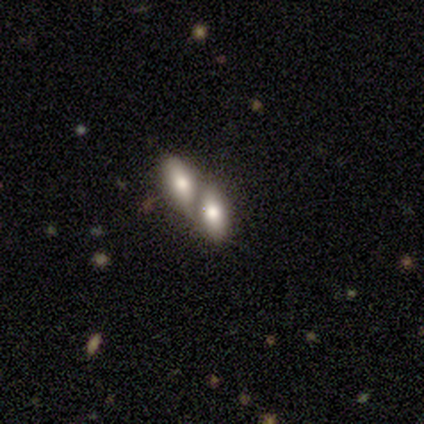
smooth 100%, featured or disk 0%, star or artifact 0%. Down the decision tree: how rounded — in between (100%); merging — merger (80%).